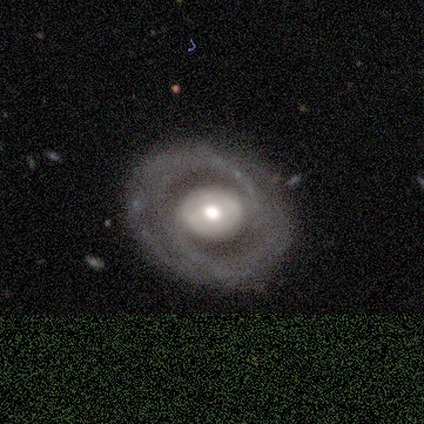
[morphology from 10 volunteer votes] Smooth or featured? featured or disk (100%)
Edge-on disk? no (90%)
Bar? no (44%)
Spiral arms? yes (89%)
Spiral winding? medium (62%)
Spiral arm count? 2 (88%)
Bulge size? moderate (78%)
Merging? none (80%)